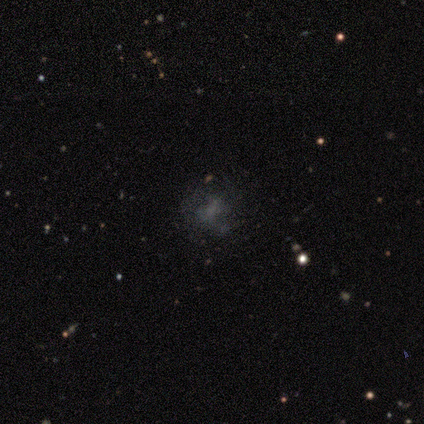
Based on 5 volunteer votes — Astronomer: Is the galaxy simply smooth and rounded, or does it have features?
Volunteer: smooth — 40%, tied with featured or disk at 40%.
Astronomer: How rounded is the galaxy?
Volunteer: round — 100%.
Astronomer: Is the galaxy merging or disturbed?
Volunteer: none — 50%.